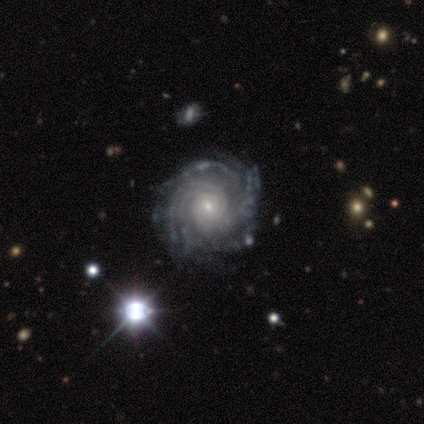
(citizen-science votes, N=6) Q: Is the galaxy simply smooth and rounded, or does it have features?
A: featured or disk — 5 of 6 (83%).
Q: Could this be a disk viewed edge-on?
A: no — 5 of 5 (100%).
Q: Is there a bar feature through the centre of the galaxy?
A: no — 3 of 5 (60%).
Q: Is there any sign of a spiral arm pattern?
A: yes — 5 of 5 (100%).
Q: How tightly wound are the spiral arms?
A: tight — 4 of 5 (80%).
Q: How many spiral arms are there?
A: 2 — 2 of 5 (40%).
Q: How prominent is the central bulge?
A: small — 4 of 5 (80%).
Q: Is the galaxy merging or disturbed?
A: minor disturbance — 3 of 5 (60%).